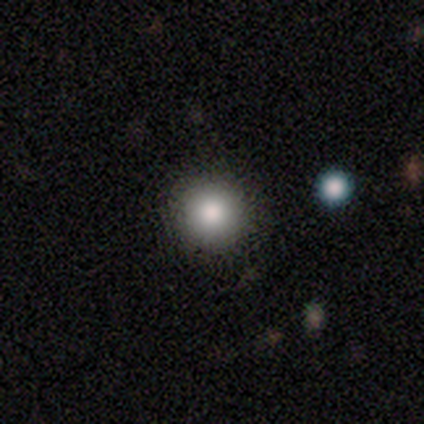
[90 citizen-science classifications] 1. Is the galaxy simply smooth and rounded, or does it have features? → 79% smooth, 11% star or artifact, 10% featured or disk.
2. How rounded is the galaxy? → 96% round, 4% in between, 0% cigar-shaped.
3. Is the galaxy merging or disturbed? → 91% none, 8% minor disturbance, 1% merger, 0% major disturbance.